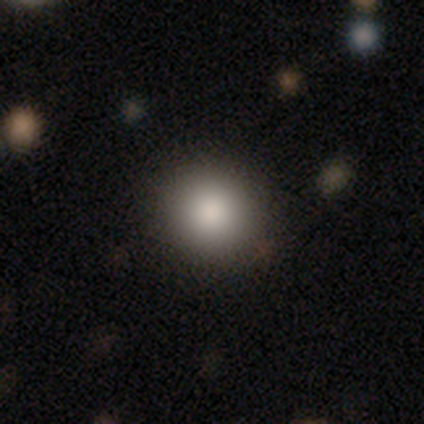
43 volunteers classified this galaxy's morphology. Volunteers were most divided on "how rounded": round: 86%, in between: 14%, cigar-shaped: 0%. More confident: merging — none (90%); smooth or featured — smooth (84%).